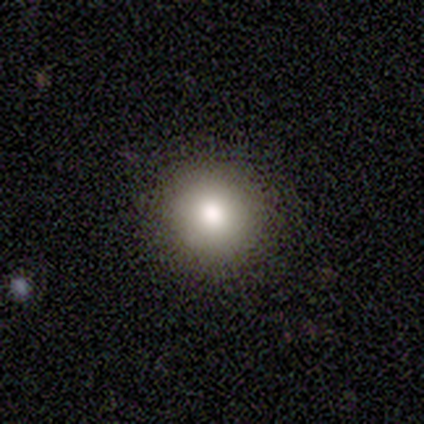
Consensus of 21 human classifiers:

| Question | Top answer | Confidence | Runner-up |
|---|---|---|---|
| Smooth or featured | smooth | 71% | star or artifact (19%) |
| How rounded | round | 93% | in between (7%) |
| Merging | none | 88% | minor disturbance (6%) |